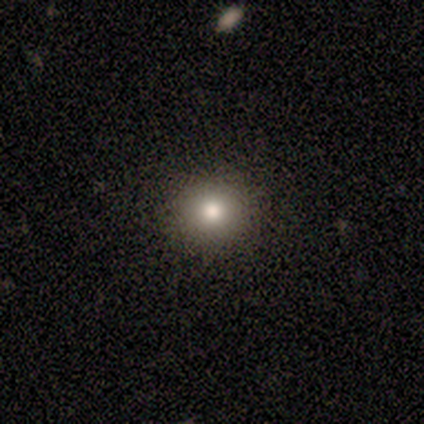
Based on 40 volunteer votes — smooth-or-featured: smooth: 88% | star or artifact: 8% | featured or disk: 5%
  how-rounded: round: 80% | in between: 20% | cigar-shaped: 0%
  merging: none: 70% | minor disturbance: 0% | major disturbance: 0% | merger: 0%